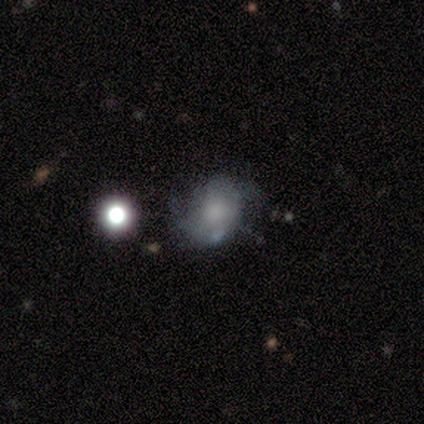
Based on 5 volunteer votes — Smooth or featured? featured or disk (60%)
Edge-on disk? no (100%)
Bar? no (67%)
Spiral arms? yes (100%)
Spiral winding? loose (100%)
Spiral arm count? 2 (67%)
Bulge size? moderate (67%)
Merging? none (50%)